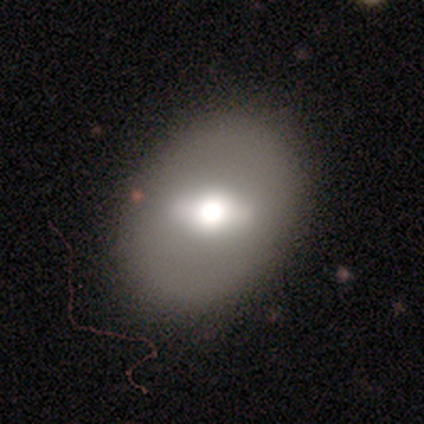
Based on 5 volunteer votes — This appears to be a smooth galaxy with no disk features (60%) that is in between round and cigar-shaped (67%). Merging: none (80%).